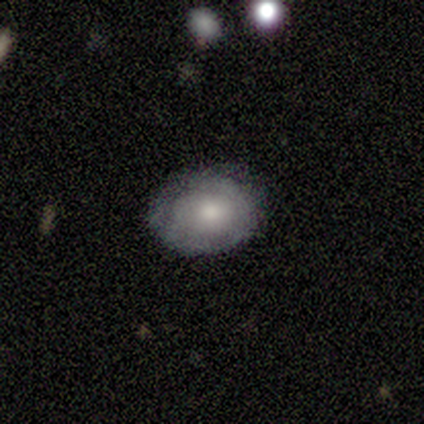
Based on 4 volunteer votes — Volunteers were most divided on "spiral arms": no: 67%, yes: 33%. More confident: edge-on disk — no (100%); bar — no (100%); bulge size — moderate (100%); smooth or featured — featured or disk (75%); merging — none (75%).